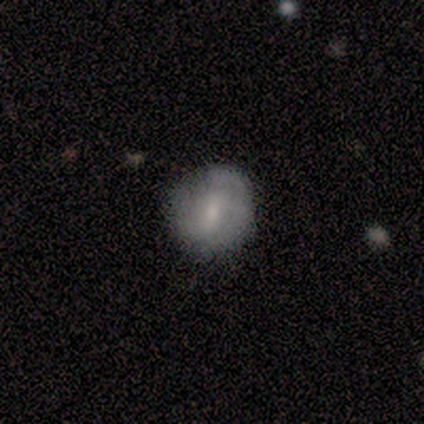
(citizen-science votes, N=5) This is likely a featured or disk galaxy (60%). It is clearly not viewed edge-on (100%). Bar: likely weak (67%). Spiral arm pattern: likely yes (67%). Spiral arm count: clearly 2 (100%). Spiral winding: possibly medium (50%, tied with loose). Central bulge: clearly moderate (100%). Merging: clearly none (80%).